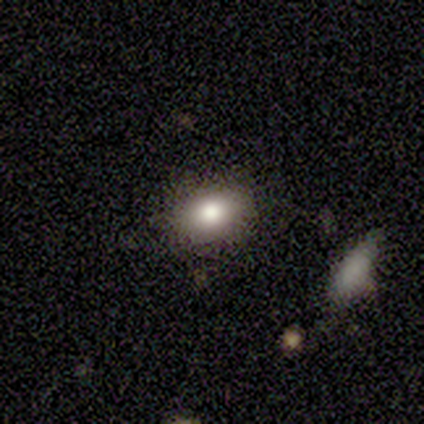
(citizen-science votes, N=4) Overall: smooth (75%). How rounded: in between (100%). Merging: none (100%).